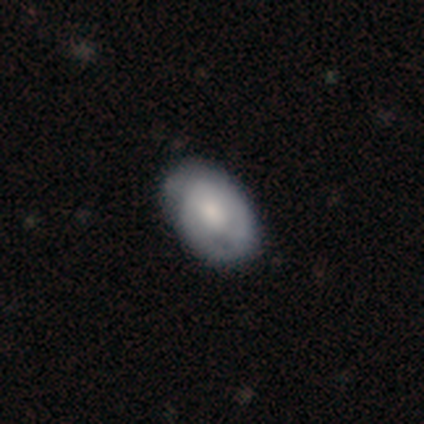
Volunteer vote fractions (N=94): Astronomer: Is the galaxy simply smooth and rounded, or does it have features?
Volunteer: smooth — 66%.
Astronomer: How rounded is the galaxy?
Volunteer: in between — 90%.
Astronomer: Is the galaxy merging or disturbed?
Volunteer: none — 69%.